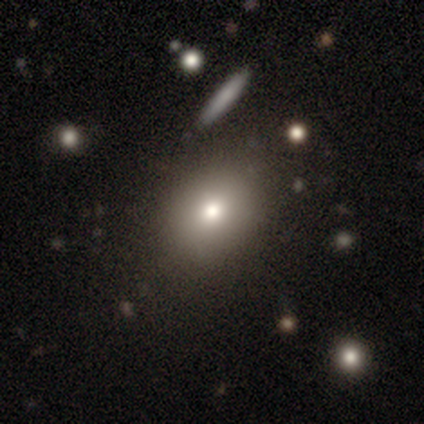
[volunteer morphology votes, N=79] smooth 72%, featured or disk 16%, star or artifact 11%. Down the decision tree: how rounded — round (58%); merging — none (37%).